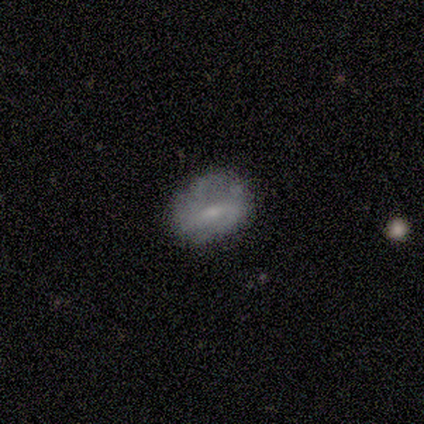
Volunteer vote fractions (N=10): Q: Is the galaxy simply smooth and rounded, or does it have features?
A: smooth — 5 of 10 (50%, tied with featured or disk).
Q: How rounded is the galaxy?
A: in between — 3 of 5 (60%).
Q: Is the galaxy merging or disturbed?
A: none — 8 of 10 (80%).